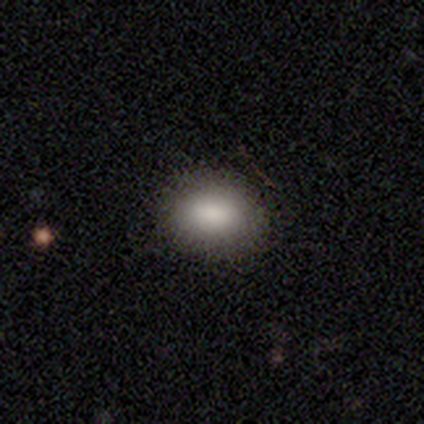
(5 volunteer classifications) A smooth galaxy with no disk features (80%) that is round (50%, tied with in between).

Vote fractions:
- Smooth or featured? smooth: 80% / star or artifact: 20% / featured or disk: 0%
- How rounded? round: 50% (tied) / in between: 50% (tied) / cigar-shaped: 0%
- Merging? none: 75% / minor disturbance: 25% / major disturbance: 0% / merger: 0%